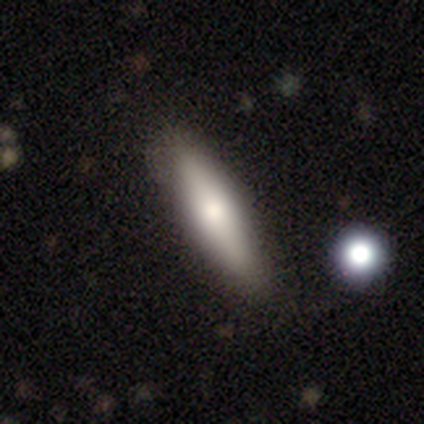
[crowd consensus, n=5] This is likely a smooth galaxy (60%). How rounded: likely cigar-shaped (67%). Merging: likely none (60%).